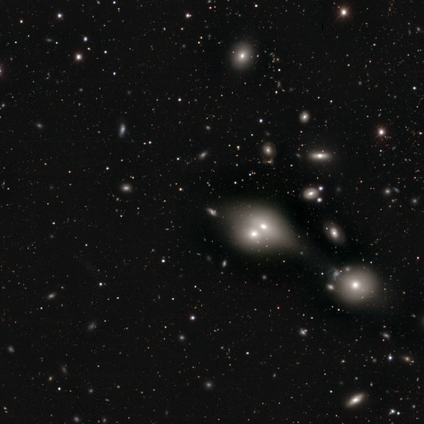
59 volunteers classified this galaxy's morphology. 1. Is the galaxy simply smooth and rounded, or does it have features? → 36% star or artifact, 34% featured or disk, 31% smooth.